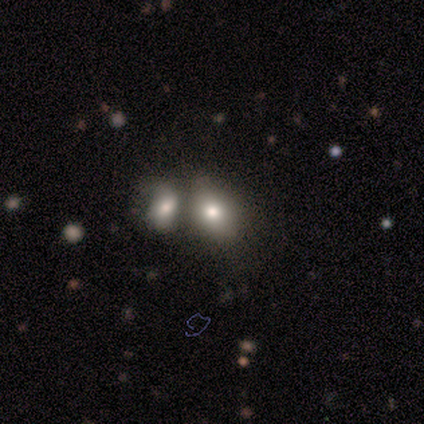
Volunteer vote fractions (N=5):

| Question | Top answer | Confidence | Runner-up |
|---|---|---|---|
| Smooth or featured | smooth | 40% | tied: star or artifact (40%) |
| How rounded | round | 100% | — |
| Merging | merger | 67% | none (33%) |